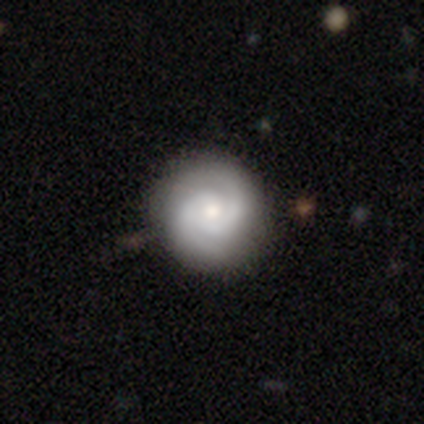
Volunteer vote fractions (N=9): Morphology: type=featured or disk (89%); edge-on=no (100%); bar=no (75%); spiral arms=yes (100%); winding=tight (50%, tied with medium); arm count=2 (88%); bulge=small (50%); merging=none (89%).